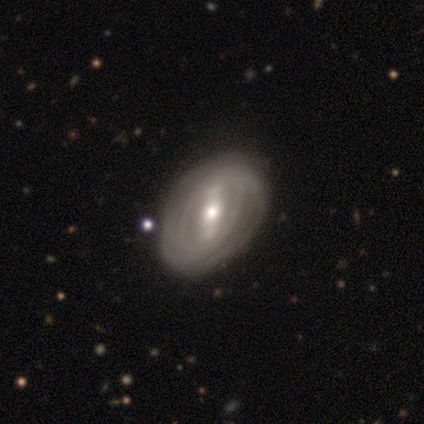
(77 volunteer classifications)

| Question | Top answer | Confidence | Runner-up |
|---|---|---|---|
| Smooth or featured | featured or disk | 83% | smooth (12%) |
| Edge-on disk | no | 95% | yes (5%) |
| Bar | strong | 67% | weak (25%) |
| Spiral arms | yes | 75% | no (25%) |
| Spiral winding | tight | 80% | medium (11%) |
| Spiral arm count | can't tell | 61% | 2 (24%) |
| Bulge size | moderate | 62% | small (33%) |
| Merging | none | 44% | minor disturbance (7%) |